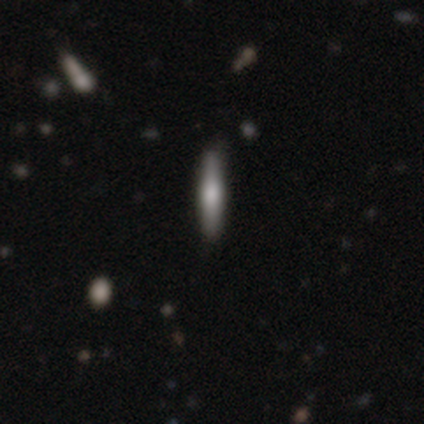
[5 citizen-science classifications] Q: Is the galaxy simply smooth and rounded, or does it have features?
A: featured or disk — 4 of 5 (80%).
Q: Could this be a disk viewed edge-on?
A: yes — 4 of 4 (100%).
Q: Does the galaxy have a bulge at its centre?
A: rounded — 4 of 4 (100%).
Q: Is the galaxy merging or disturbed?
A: none — 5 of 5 (100%).